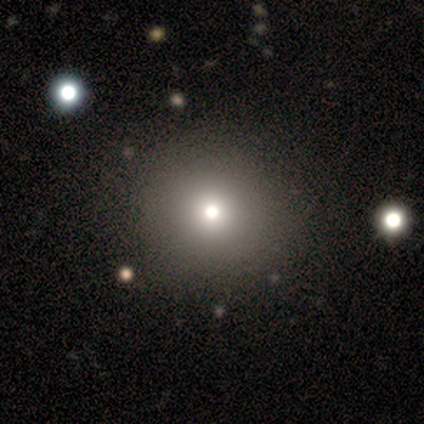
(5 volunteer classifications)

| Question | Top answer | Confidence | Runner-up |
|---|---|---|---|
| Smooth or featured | smooth | 100% | — |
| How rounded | round | 100% | — |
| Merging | none | 100% | — |